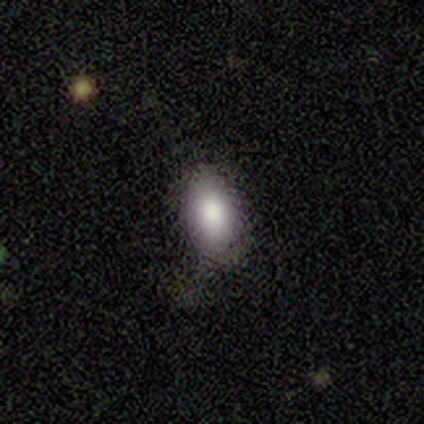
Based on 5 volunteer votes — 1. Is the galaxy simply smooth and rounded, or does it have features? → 60% smooth, 20% featured or disk, 20% star or artifact.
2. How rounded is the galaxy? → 67% in between, 33% round, 0% cigar-shaped.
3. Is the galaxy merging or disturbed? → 50% none, 25% minor disturbance, 25% major disturbance, 0% merger.